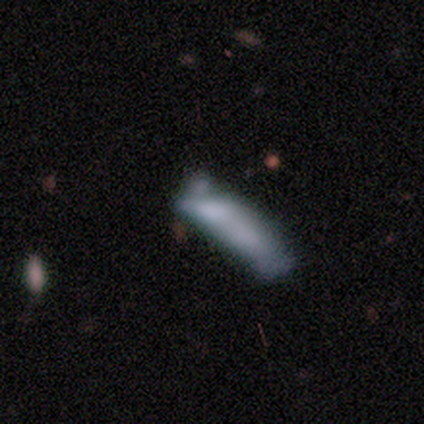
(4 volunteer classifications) A smooth galaxy with no disk features (100%) that is cigar-shaped (75%).

Vote fractions:
- Smooth or featured? smooth: 100% / featured or disk: 0% / star or artifact: 0%
- How rounded? cigar-shaped: 75% / in between: 25% / round: 0%
- Merging? none: 50% / major disturbance: 25% / merger: 25% / minor disturbance: 0%